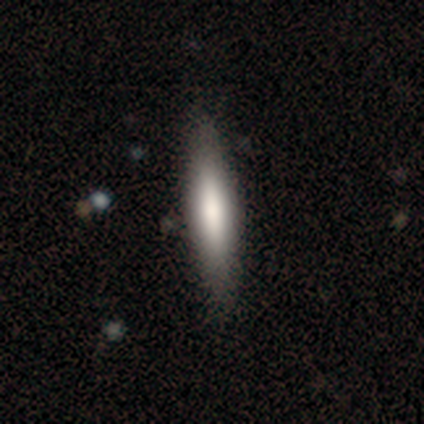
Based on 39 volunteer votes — smooth_or_featured: smooth (p=0.77) [alt: featured or disk p=0.23]
how_rounded: cigar-shaped (p=0.77) [alt: in between p=0.23]
merging: none (p=0.56) [alt: minor disturbance p=0.13]